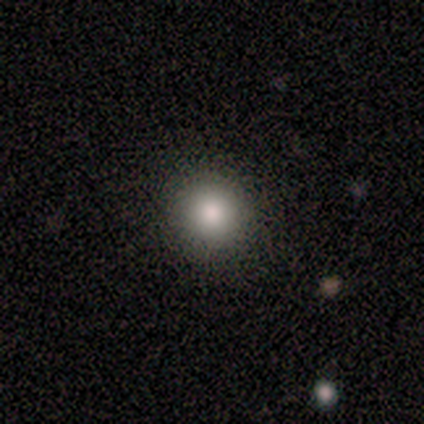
A smooth galaxy with no disk features (86%) that is round (83%). Merging: none (71%).